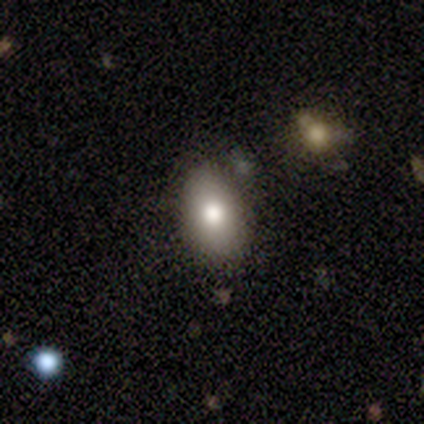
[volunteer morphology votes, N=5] Overall: smooth (80%). How rounded: in between (100%). Merging: none (80%).